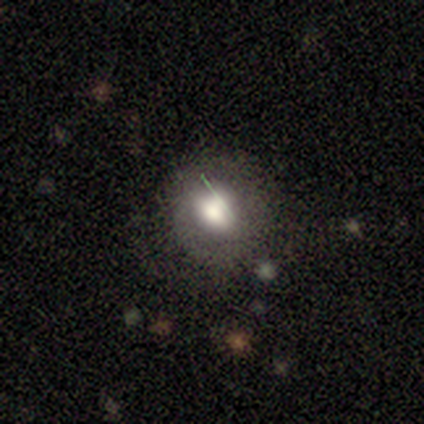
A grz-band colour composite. It shows a smooth galaxy with no disk features (76%) that is round (90%). Merging: none (60%).